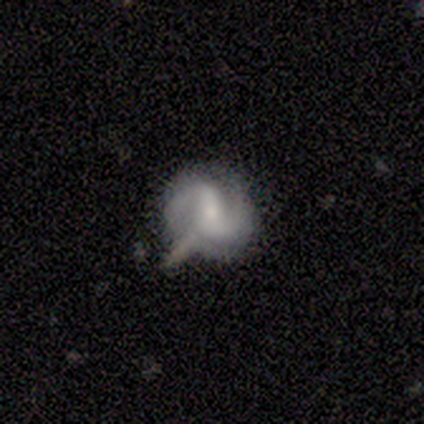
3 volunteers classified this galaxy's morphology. This is clearly a featured or disk galaxy (100%). It is clearly not viewed edge-on (100%). Bar: likely weak (67%). Spiral arm pattern: clearly yes (100%). Spiral arm count: likely 2 (67%). Spiral winding: likely tight (67%). Central bulge: likely small (67%). Merging: marginally none (33%, tied with minor disturbance and major disturbance).